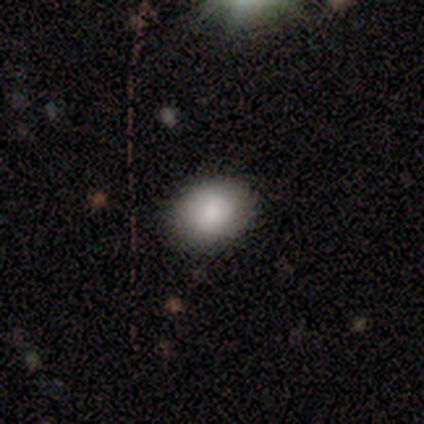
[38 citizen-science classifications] Smooth or featured?
  - smooth: 92% *
  - featured or disk: 5%
  - star or artifact: 3%
How rounded?
  - in between: 74% *
  - round: 26%
  - cigar-shaped: 0%
Merging?
  - none: 86% *
  - minor disturbance: 11%
  - merger: 3%
  - major disturbance: 0%